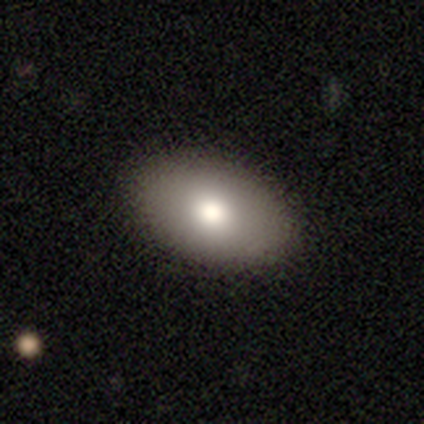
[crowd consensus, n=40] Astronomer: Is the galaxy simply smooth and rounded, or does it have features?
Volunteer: smooth — 88%.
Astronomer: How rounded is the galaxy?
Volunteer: in between — 91%.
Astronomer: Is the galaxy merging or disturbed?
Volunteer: none — 92%.